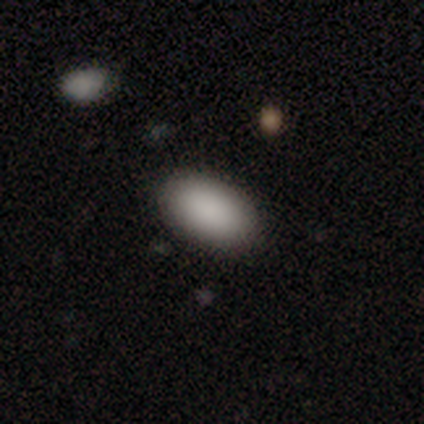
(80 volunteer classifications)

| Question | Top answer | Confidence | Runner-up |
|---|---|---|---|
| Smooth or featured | smooth | 94% | star or artifact (6%) |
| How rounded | in between | 95% | round (4%) |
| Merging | none | 45% | minor disturbance (3%) |